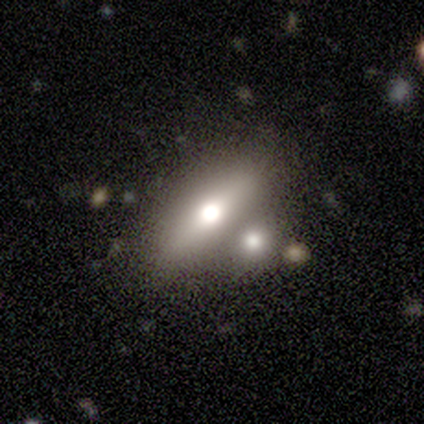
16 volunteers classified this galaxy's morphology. A smooth galaxy with no disk features (50%) that is in between round and cigar-shaped (75%). Merging: none (50%).